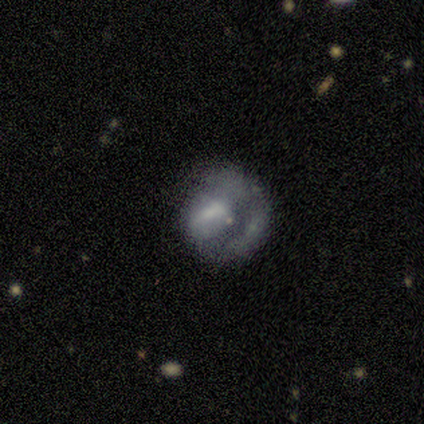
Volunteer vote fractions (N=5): Smooth or featured?
  - smooth: 40% * (tied)
  - featured or disk: 40% * (tied)
  - star or artifact: 20%
How rounded?
  - round: 100% *
  - in between: 0%
  - cigar-shaped: 0%
Merging?
  - none: 50% *
  - minor disturbance: 25%
  - major disturbance: 25%
  - merger: 0%